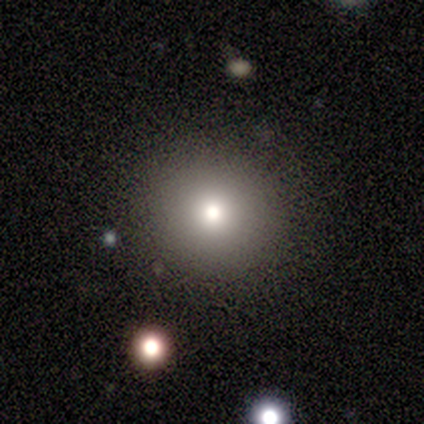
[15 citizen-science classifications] This is likely a smooth galaxy (73%). How rounded: clearly round (100%). Merging: clearly none (92%).